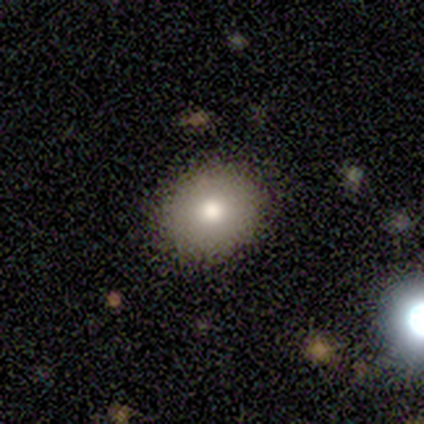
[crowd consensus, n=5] Smooth or featured: smooth — 60% (featured or disk — 20%)
How rounded: round — 67% (in between — 33%)
Merging: none — 100%